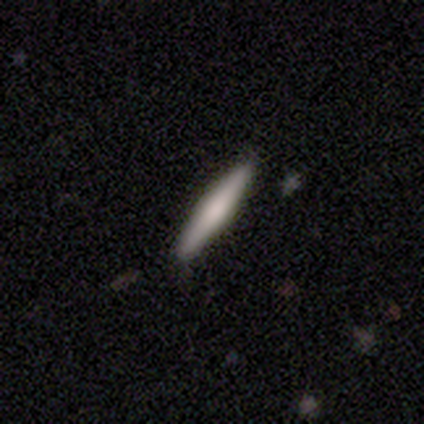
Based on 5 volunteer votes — Smooth or featured? featured or disk (60%)
Edge-on disk? yes (100%)
Edge-on bulge? rounded (67%)
Merging? none (100%)